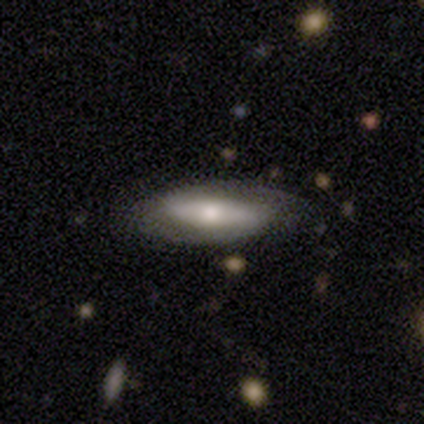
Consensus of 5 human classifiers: Smooth or featured? smooth (60%)
How rounded? in between (100%)
Merging? none (100%)